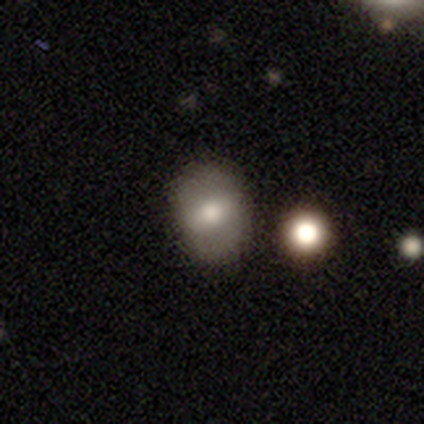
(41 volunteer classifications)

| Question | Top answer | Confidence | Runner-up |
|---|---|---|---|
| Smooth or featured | smooth | 59% | featured or disk (39%) |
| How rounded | in between | 67% | round (29%) |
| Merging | none | 57% | merger (8%) |